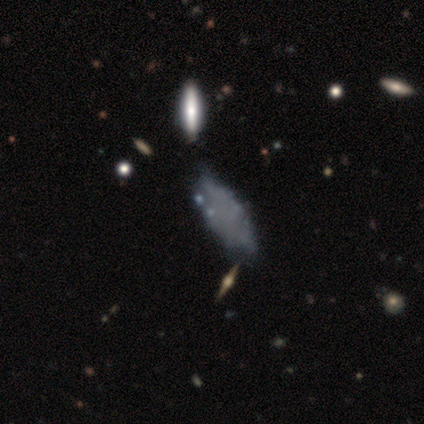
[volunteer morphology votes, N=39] featured or disk 46%, smooth 38%, star or artifact 15%. Down the decision tree: edge-on disk — no (89%); bar — no (100%); spiral arms — no (100%); bulge size — none (100%); merging — none (55%).